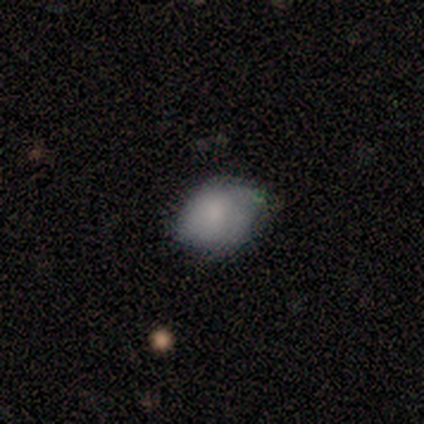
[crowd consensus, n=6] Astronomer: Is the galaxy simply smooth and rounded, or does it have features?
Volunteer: smooth — 100%.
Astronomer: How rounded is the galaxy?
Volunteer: in between — 67%.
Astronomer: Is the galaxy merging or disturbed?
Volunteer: none — 50% (runner-up: minor disturbance, 33%).